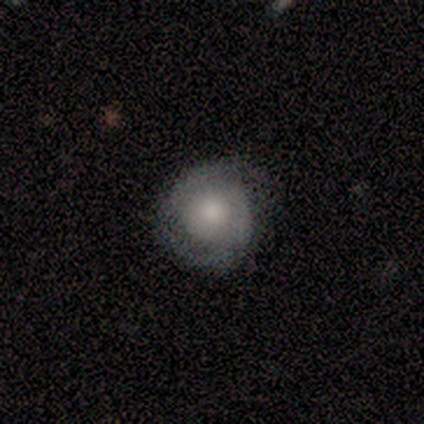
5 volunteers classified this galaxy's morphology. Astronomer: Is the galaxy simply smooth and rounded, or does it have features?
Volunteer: featured or disk — 60% (runner-up: smooth, 40%).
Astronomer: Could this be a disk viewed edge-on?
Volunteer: no — 100%.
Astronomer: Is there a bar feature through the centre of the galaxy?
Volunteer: no — 100%.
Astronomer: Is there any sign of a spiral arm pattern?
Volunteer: yes — 100%.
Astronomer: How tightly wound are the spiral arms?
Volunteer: tight — 67%.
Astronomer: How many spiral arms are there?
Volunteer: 1 — 67%.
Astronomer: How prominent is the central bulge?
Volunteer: moderate — 67%.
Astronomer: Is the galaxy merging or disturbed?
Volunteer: none — 100%.